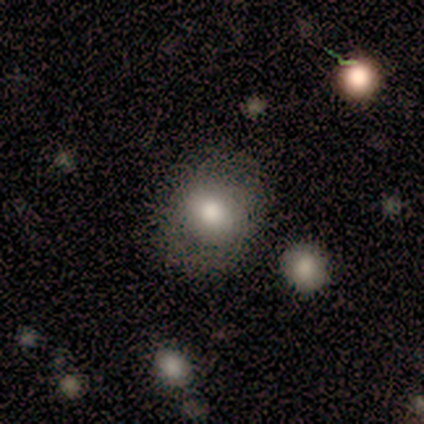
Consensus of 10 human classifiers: Smooth or featured? smooth (80%)
How rounded? round (62%)
Merging? none (78%)